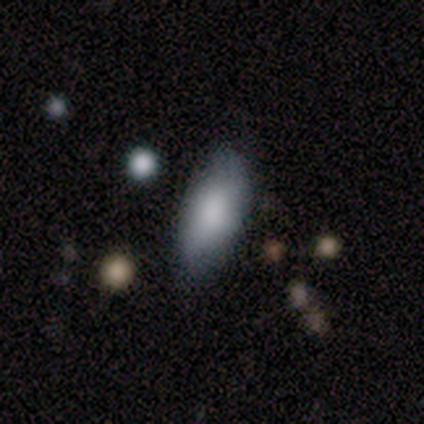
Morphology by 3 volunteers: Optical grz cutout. It shows a smooth galaxy with no disk features (100%) that is in between round and cigar-shaped (100%). Merging: none (100%).